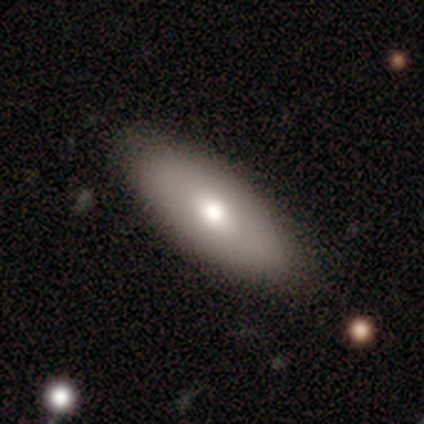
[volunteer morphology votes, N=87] smooth-or-featured: smooth: 76% | featured or disk: 17% | star or artifact: 7%
  how-rounded: in between: 73% | cigar-shaped: 27% | round: 0%
  merging: none: 88% | minor disturbance: 9% | major disturbance: 4% | merger: 0%